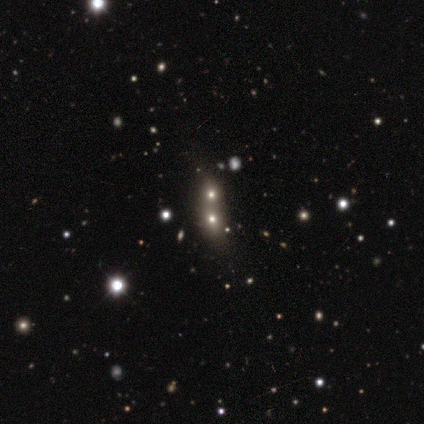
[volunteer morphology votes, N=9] Smooth or featured?
  - featured or disk: 44% *
  - smooth: 33%
  - star or artifact: 22%
Edge-on disk?
  - no: 100% *
  - yes: 0%
Bar?
  - no: 75% *
  - weak: 25%
  - strong: 0%
Spiral arms?
  - no: 100% *
  - yes: 0%
Bulge size?
  - moderate: 75% *
  - large: 25%
  - dominant: 0%
  - small: 0%
  - none: 0%
Merging?
  - merger: 100% *
  - none: 0%
  - minor disturbance: 0%
  - major disturbance: 0%